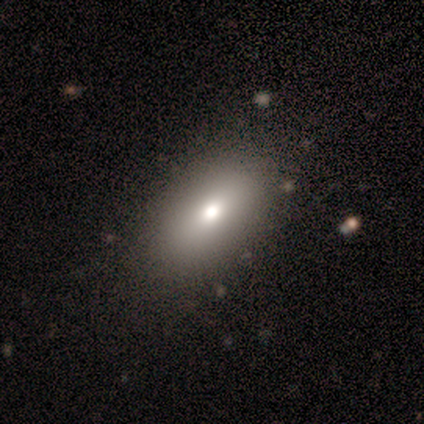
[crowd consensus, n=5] Smooth or featured? smooth (60%)
How rounded? in between (100%)
Merging? major disturbance (67%)